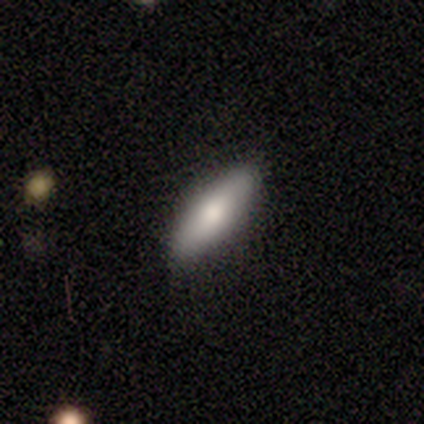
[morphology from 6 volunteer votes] smooth_or_featured: smooth (p=0.50) [alt: featured or disk p=0.33]
how_rounded: cigar-shaped (p=0.67) [alt: in between p=0.33]
merging: none (p=1.00)